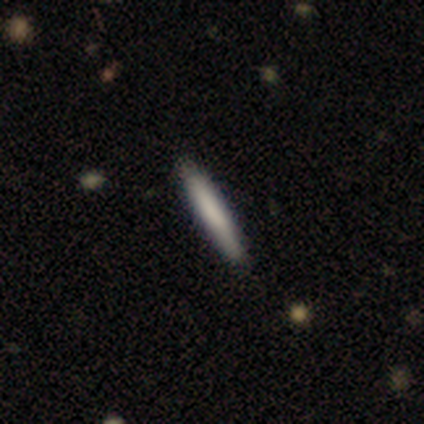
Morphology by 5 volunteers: Overall: smooth (60%; featured or disk 20%). How rounded: cigar-shaped (100%). Merging: none (100%).